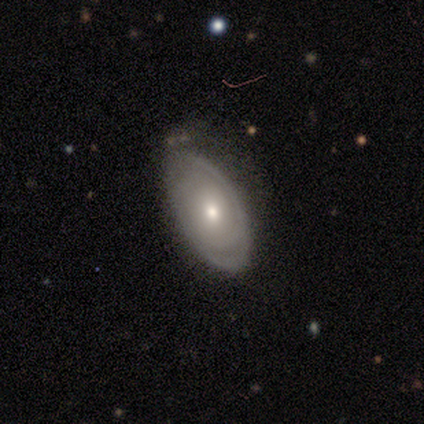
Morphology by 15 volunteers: smooth_or_featured: featured or disk (p=0.93) [alt: smooth p=0.07]
disk_edge_on: no (p=0.93) [alt: yes p=0.07]
bar: no (p=0.92) [alt: weak p=0.08]
has_spiral_arms: yes (p=0.77) [alt: no p=0.23]
spiral_winding: tight (p=0.70) [alt: medium p=0.20]
spiral_arm_count: can't tell (p=0.70) [alt: 2 p=0.30]
bulge_size: moderate (p=0.54) [alt: small p=0.38]
merging: none (p=0.73) [alt: minor disturbance p=0.27]